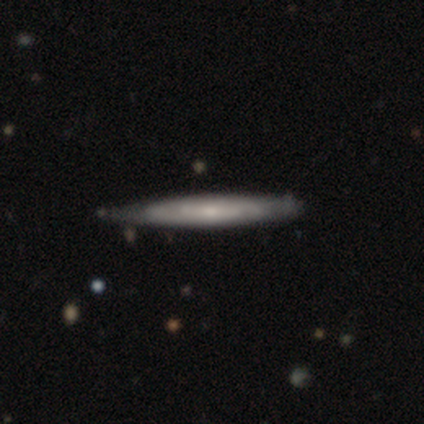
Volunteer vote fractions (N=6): Volunteers were most divided on "edge-on bulge": none: 50%, boxy: 25%, rounded: 25%. More confident: smooth or featured — featured or disk (83%); merging — none (83%); edge-on disk — yes (80%).